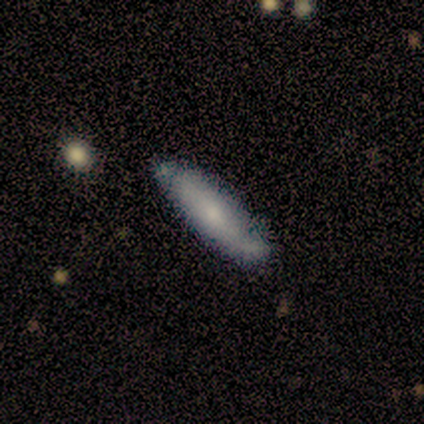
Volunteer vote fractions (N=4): Smooth or featured? 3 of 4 (75%) said smooth. How rounded? 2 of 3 (67%) said cigar-shaped. Merging? 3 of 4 (75%) said none.